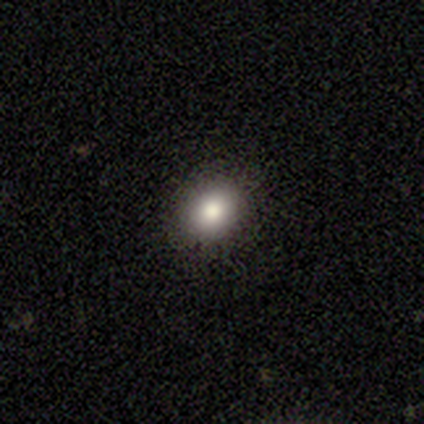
smooth-or-featured: smooth: 100% | featured or disk: 0% | star or artifact: 0%
  how-rounded: in between: 60% | round: 40% | cigar-shaped: 0%
  merging: none: 100% | minor disturbance: 0% | major disturbance: 0% | merger: 0%